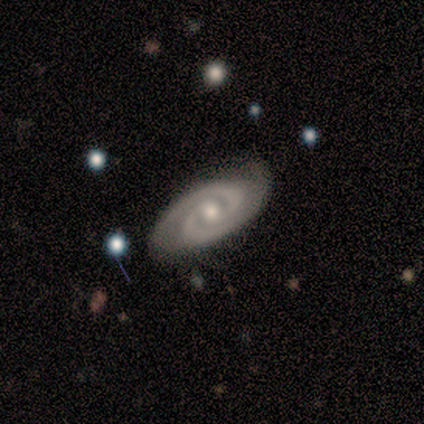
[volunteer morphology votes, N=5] This appears to be a featured or disk galaxy (100%) with no bar (80%), 2 (80%) tight (100%) spiral arms (100%) and a moderate central bulge (80%). Merging: none (60%).